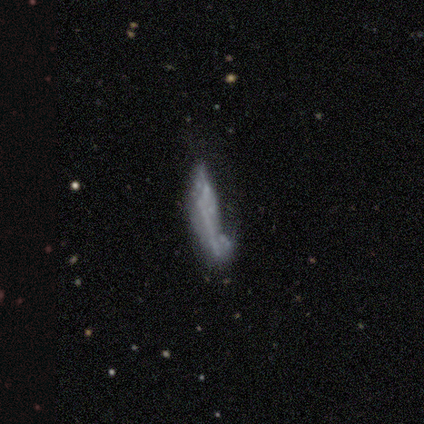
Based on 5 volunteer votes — smooth_or_featured: smooth (p=0.60) [alt: featured or disk p=0.40]
how_rounded: round (p=0.33) [tied with: in between p=0.33, cigar-shaped p=0.33]
merging: none (p=0.40) [tied with: minor disturbance p=0.40]